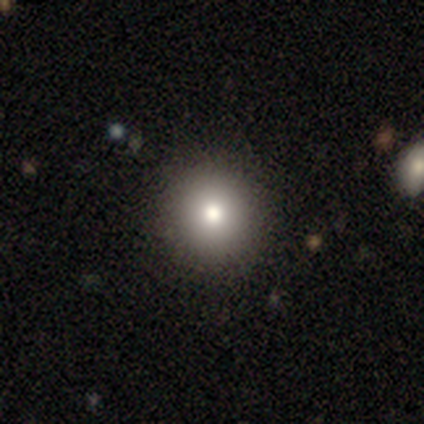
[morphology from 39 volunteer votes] A smooth galaxy with no disk features (79%) that is round (97%). Merging: none (64%).